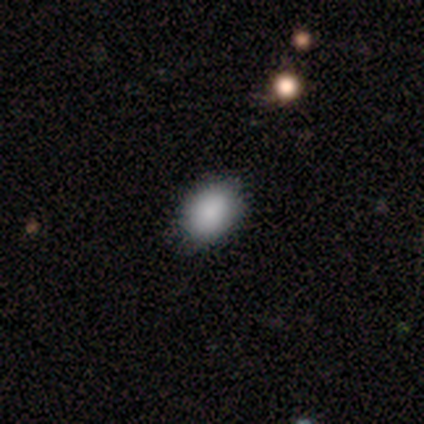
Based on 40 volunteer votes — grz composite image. It shows a smooth galaxy with no disk features (92%) that is in between round and cigar-shaped (73%). Merging: none (89%).